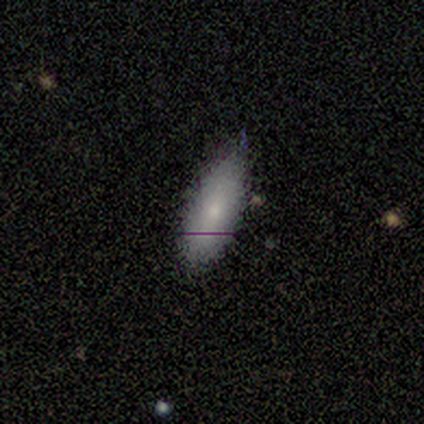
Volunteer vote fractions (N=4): Overall: smooth (100%). How rounded: in between (50%, tied with cigar-shaped). Merging: none (75%).